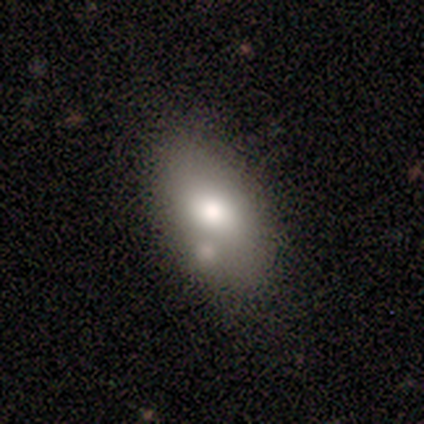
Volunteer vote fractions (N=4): Smooth or featured: smooth — 50% (featured or disk — 25%)
How rounded: in between — 100%
Merging: none — 33% (tied with minor disturbance — 33%; merger — 33%)